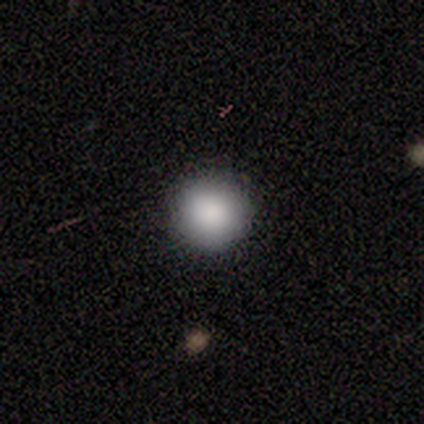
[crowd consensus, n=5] A smooth galaxy with no disk features (100%) that is round (100%). Merging: none (100%).